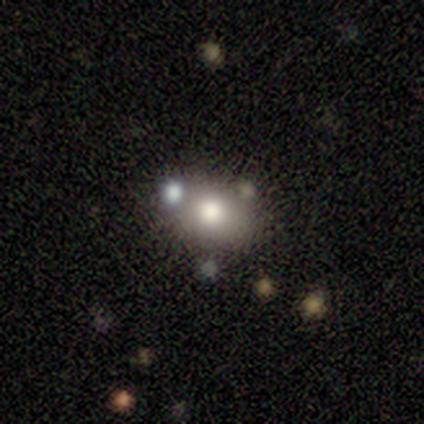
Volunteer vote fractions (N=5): Smooth or featured: smooth — 60% (star or artifact — 40%)
How rounded: in between — 67% (round — 33%)
Merging: none — 67% (minor disturbance — 33%)